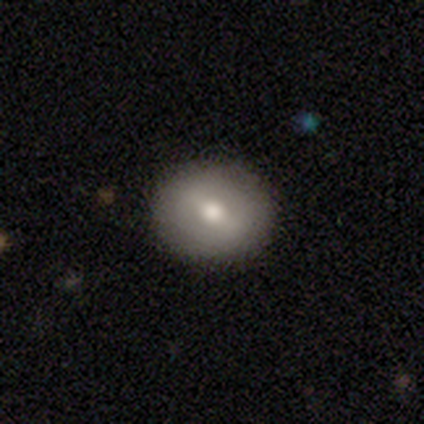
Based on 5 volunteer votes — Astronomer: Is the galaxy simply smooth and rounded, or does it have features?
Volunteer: featured or disk — 60%.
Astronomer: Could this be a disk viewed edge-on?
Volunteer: no — 100%.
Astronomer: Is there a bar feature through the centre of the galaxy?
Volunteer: strong — 33%, tied with weak and no at 33%.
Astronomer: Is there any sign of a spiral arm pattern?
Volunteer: no — 67%.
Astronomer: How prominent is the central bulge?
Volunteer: moderate — 67%.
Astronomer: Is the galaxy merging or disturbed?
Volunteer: none — 100%.